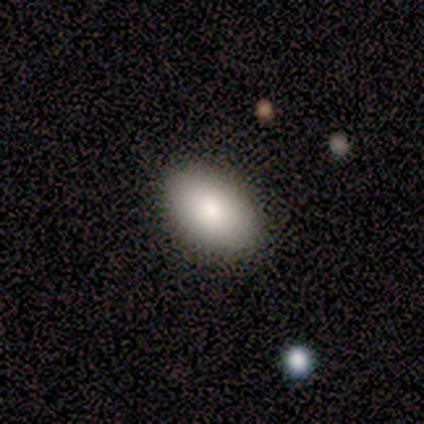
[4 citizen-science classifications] Overall: smooth (100%). How rounded: in between (100%). Merging: none (75%).